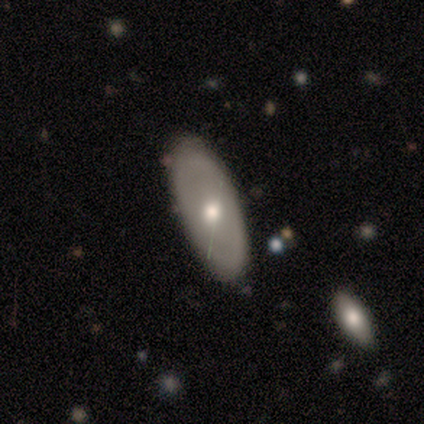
Morphology: type=smooth (60%); roundness=in between (67%); merging=none (60%).